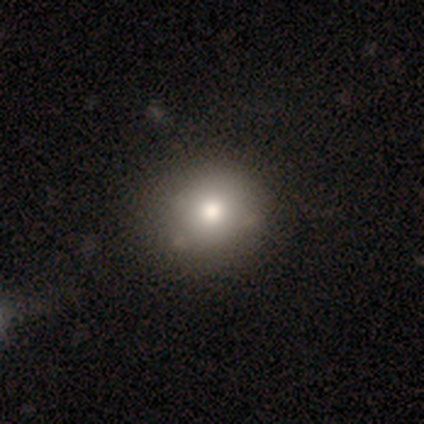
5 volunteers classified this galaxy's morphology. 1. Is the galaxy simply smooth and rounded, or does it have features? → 80% smooth, 20% star or artifact, 0% featured or disk.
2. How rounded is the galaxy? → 75% round, 25% in between, 0% cigar-shaped.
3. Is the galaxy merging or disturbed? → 100% none, 0% minor disturbance, 0% major disturbance, 0% merger.